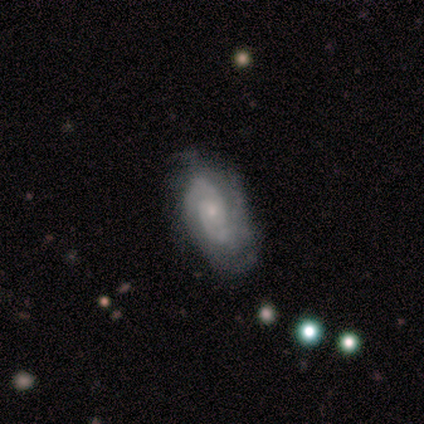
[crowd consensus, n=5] Smooth or featured? featured or disk (100%)
Edge-on disk? no (100%)
Bar? weak (60%)
Spiral arms? yes (100%)
Spiral winding? tight (40%, tied with medium)
Spiral arm count? 2 (60%)
Bulge size? small (80%)
Merging? none (100%)